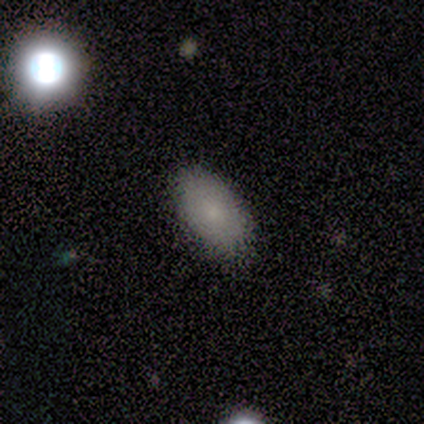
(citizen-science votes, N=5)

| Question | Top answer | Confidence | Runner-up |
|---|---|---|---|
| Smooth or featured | smooth | 100% | — |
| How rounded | in between | 80% | cigar-shaped (20%) |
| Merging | none | 60% | minor disturbance (40%) |